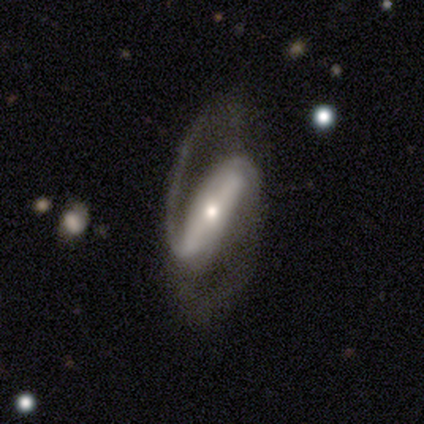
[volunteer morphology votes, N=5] Q: Smooth or featured?
A: featured or disk (100%)
Q: Edge-on disk?
A: no (100%)
Q: Bar?
A: strong (40%); tied with: weak (40%)
Q: Spiral arms?
A: yes (100%)
Q: Spiral winding?
A: medium (80%); runner-up: loose (20%)
Q: Spiral arm count?
A: 2 (80%); runner-up: can't tell (20%)
Q: Bulge size?
A: large (40%); tied with: moderate (40%)
Q: Merging?
A: none (60%); runner-up: minor disturbance (20%)